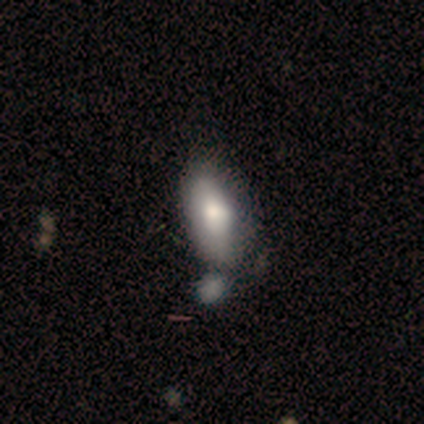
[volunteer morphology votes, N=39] A smooth galaxy with no disk features (72%) that is in between round and cigar-shaped (82%). Merging: none (37%).